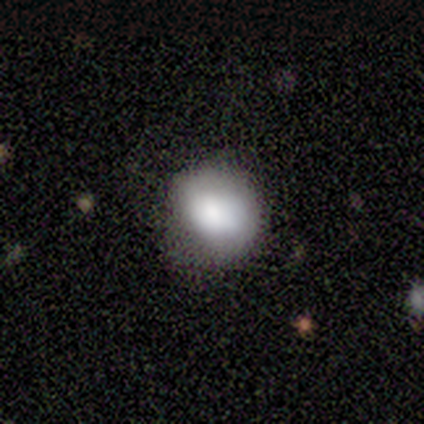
Smooth or featured? 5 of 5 (100%) said smooth. How rounded? 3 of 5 (60%) said in between. Merging? 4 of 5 (80%) said none.